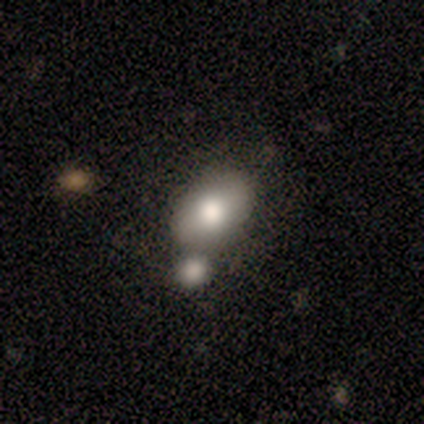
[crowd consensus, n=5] This is marginally a smooth galaxy (40%, tied with featured or disk). How rounded: possibly round (50%, tied with in between). Merging: possibly none (50%).